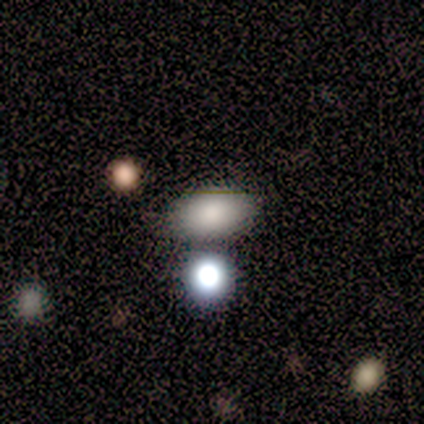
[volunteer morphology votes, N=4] type=smooth (100%); roundness=in between (100%); merging=none (100%).